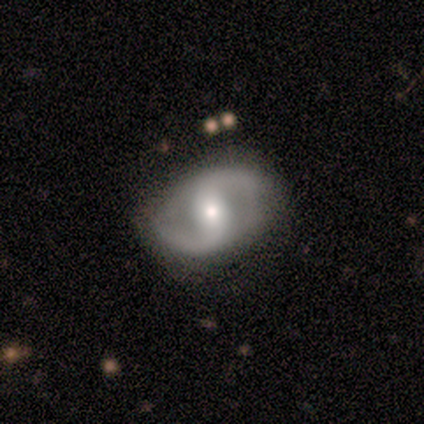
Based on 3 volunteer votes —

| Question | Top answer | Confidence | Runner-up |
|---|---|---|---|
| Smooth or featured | featured or disk | 100% | — |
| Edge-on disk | no | 100% | — |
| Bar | strong | 33% | tied: weak (33%), no (33%) |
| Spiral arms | yes | 100% | — |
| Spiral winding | tight | 33% | tied: medium (33%), loose (33%) |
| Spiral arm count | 2 | 100% | — |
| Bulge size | moderate | 67% | small (33%) |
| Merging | none | 100% | — |